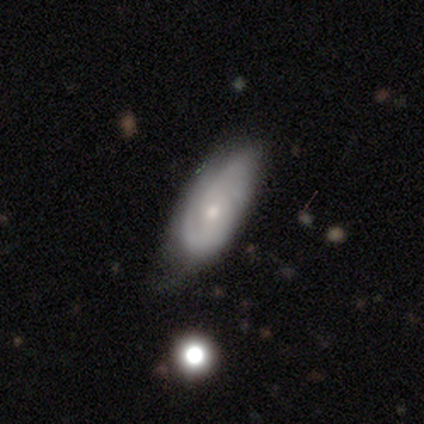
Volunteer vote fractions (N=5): Morphology: type=featured or disk (60%); edge-on=no (100%); bar=no (100%); spiral arms=yes (100%); winding=tight (100%); arm count=can't tell (67%); bulge=moderate (67%); merging=none (50%).